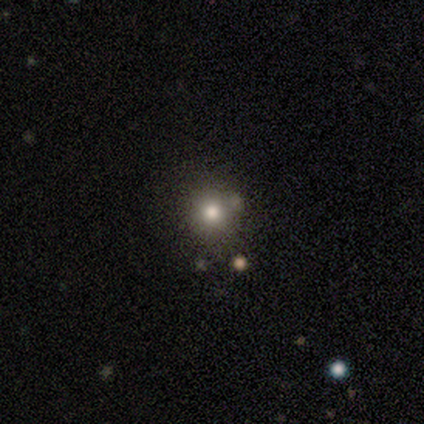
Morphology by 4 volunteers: smooth-or-featured: smooth: 75% | featured or disk: 25% | star or artifact: 0%
  how-rounded: in between: 67% | round: 33% | cigar-shaped: 0%
  merging: none: 75% | merger: 25% | minor disturbance: 0% | major disturbance: 0%